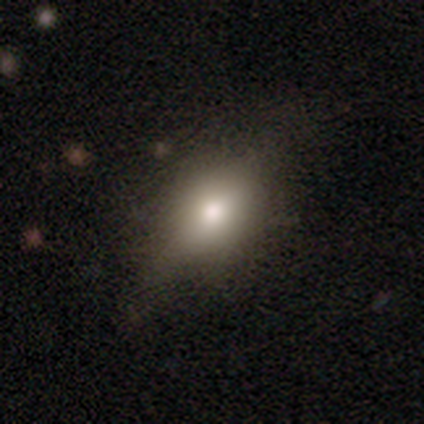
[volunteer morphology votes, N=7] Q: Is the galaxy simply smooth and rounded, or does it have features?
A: smooth — 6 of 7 (86%).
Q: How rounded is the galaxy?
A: in between — 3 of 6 (50%).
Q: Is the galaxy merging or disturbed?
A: none — 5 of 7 (71%).